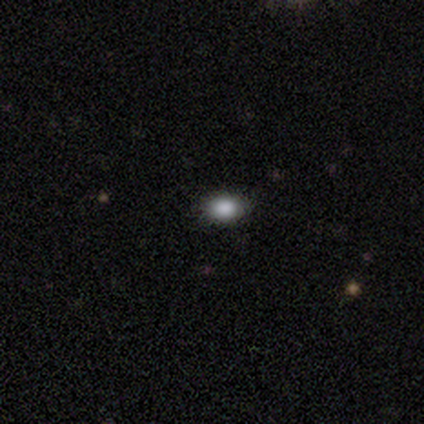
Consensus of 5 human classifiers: Volunteers were most divided on "smooth or featured": smooth: 60%, star or artifact: 40%, featured or disk: 0%. More confident: how rounded — in between (100%); merging — none (67%).